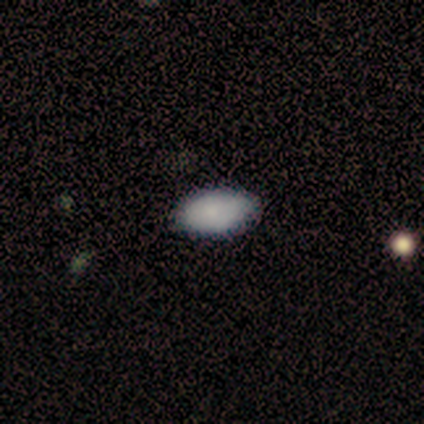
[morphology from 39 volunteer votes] Smooth or featured: smooth — 82% (featured or disk — 10%)
How rounded: in between — 100%
Merging: none — 61% (minor disturbance — 3%)